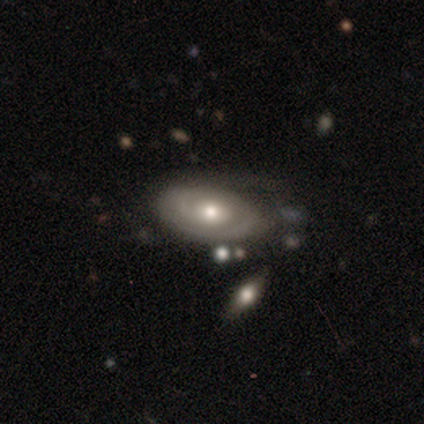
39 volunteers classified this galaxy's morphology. This is likely a featured or disk galaxy (69%). It is clearly not viewed edge-on (93%). Bar: clearly no (92%). Spiral arm pattern: likely yes (60%). Spiral arm count: possibly can't tell (47%). Spiral winding: likely tight (60%). Central bulge: likely moderate (76%). Merging: possibly none (54%).